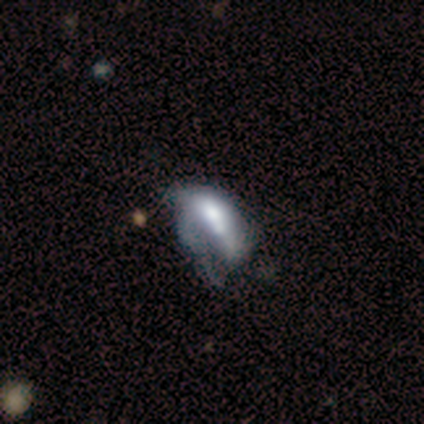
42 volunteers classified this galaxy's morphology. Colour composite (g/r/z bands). It shows a smooth galaxy with no disk features (50%) that is in between round and cigar-shaped (90%). Merging: major disturbance (46%).